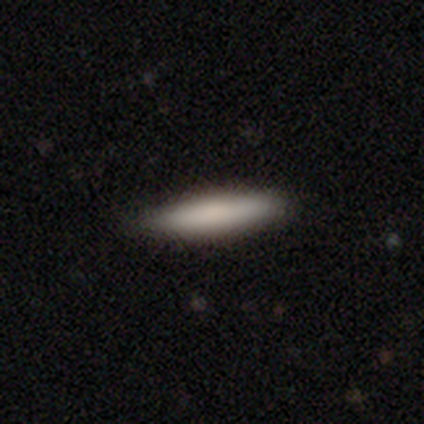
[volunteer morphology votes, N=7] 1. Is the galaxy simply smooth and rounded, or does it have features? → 86% smooth, 14% star or artifact, 0% featured or disk.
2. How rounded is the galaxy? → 83% cigar-shaped, 17% in between, 0% round.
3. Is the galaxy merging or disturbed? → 83% none, 17% minor disturbance, 0% major disturbance, 0% merger.